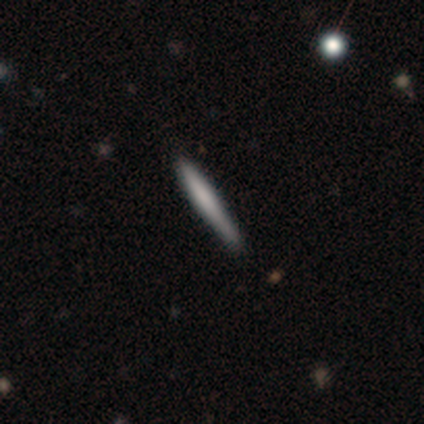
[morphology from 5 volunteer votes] This is clearly a smooth galaxy (80%). How rounded: clearly cigar-shaped (100%). Merging: likely none (60%).